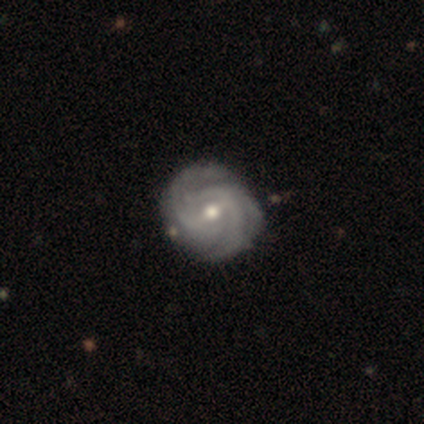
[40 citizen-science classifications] A featured or disk galaxy (95%) with a weak bar (63%), 3 (58%) tight (68%) spiral arms (100%) and a moderate central bulge (74%). Merging: none (54%).